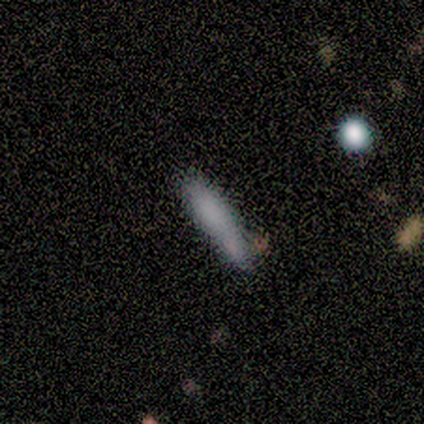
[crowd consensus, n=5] Smooth or featured: smooth — 80% (featured or disk — 20%)
How rounded: cigar-shaped — 75% (in between — 25%)
Merging: none — 80% (merger — 20%)